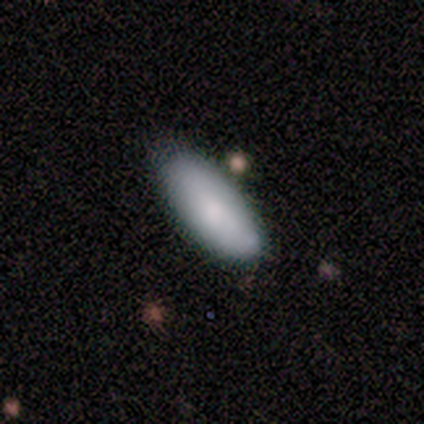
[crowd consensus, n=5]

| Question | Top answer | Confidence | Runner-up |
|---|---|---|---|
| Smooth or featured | smooth | 80% | featured or disk (20%) |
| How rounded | in between | 75% | round (25%) |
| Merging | none | 100% | — |